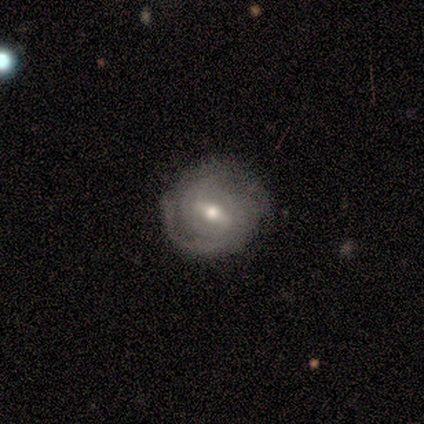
smooth-or-featured: featured or disk: 67% | smooth: 25% | star or artifact: 8%
  disk-edge-on: no: 100% | yes: 0%
    bar: weak: 62% | strong: 38% | no: 0%
    has-spiral-arms: yes: 75% | no: 25%
      spiral-winding: tight: 50% | medium: 33% | loose: 17%
      spiral-arm-count: 3: 33% (tied) | can't tell: 33% (tied) | 1: 17% | 4: 17% | 2: 0% | more than 4: 0%
    bulge-size: moderate: 62% | small: 38% | dominant: 0% | large: 0% | none: 0%
  merging: none: 73% | minor disturbance: 27% | major disturbance: 0% | merger: 0%